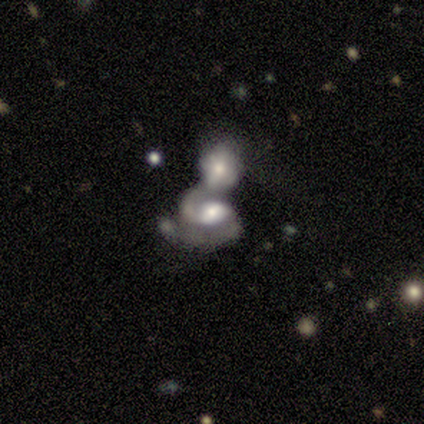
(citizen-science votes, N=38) This is likely a featured or disk galaxy (63%). It is clearly not viewed edge-on (100%). Bar: possibly weak (50%, tied with no). Spiral arm pattern: clearly yes (88%). Spiral arm count: clearly 2 (81%). Spiral winding: marginally medium (43%). Central bulge: possibly moderate (46%). Merging: clearly merger (89%).